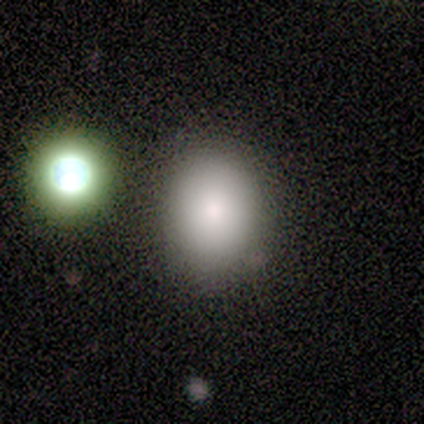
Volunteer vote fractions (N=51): Smooth or featured: smooth — 80% (featured or disk — 18%)
How rounded: in between — 51% (round — 49%)
Merging: none — 82% (minor disturbance — 10%)